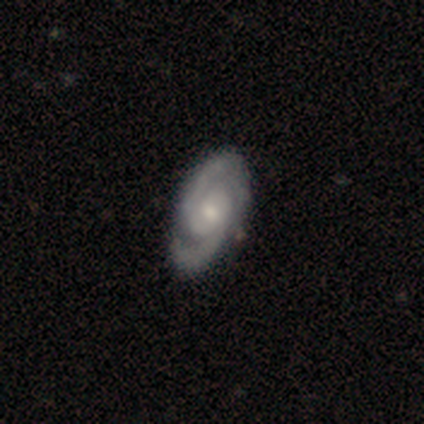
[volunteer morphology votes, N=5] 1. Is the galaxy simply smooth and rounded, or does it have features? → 100% featured or disk, 0% smooth, 0% star or artifact.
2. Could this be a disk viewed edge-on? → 100% no, 0% yes.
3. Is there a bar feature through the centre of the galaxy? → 60% no, 40% weak, 0% strong.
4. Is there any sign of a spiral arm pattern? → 100% yes, 0% no.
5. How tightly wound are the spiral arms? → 60% tight, 40% medium, 0% loose.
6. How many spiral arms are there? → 80% 2, 20% 3, 0% 1, 0% 4, 0% more than 4, 0% can't tell.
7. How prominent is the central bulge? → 60% moderate, 40% small, 0% dominant, 0% large, 0% none.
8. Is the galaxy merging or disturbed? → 100% none, 0% minor disturbance, 0% major disturbance, 0% merger.